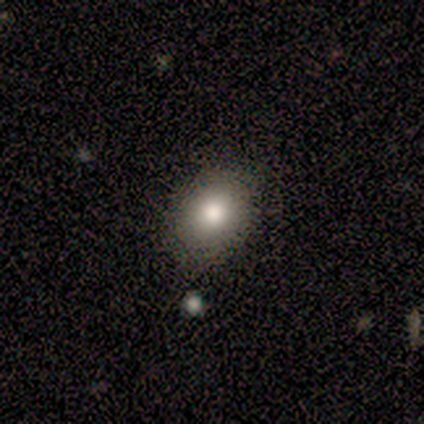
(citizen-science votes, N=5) Q: Smooth or featured?
A: smooth (80%); runner-up: star or artifact (20%)
Q: How rounded?
A: in between (100%)
Q: Merging?
A: none (100%)